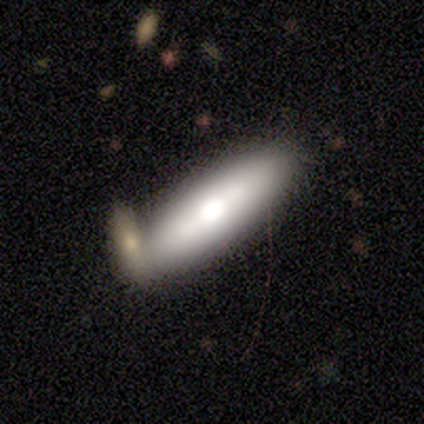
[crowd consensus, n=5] This is clearly a featured or disk galaxy (80%). It is clearly viewed edge-on (100%). Edge-on bulge: clearly rounded (100%). Merging: clearly none (100%).